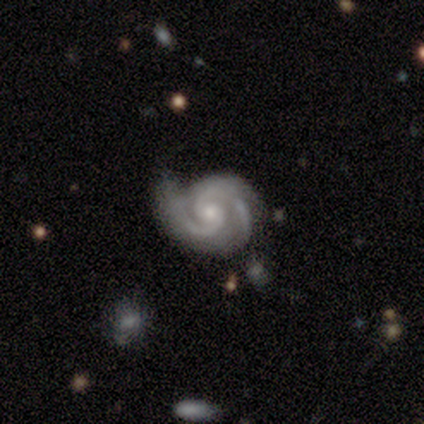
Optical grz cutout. It shows a featured or disk galaxy (92%) with no bar (76%), 2 (79%) tight (58%) spiral arms (100%) and a small central bulge (52%). Merging: none (68%).